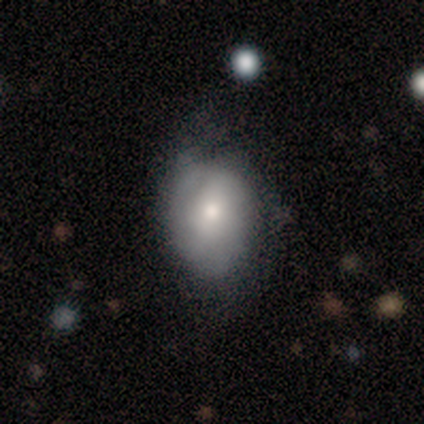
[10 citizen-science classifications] smooth-or-featured: smooth: 50% (tied) | featured or disk: 50% (tied) | star or artifact: 0%
  how-rounded: in between: 80% | round: 20% | cigar-shaped: 0%
  merging: none: 50% | minor disturbance: 40% | major disturbance: 10% | merger: 0%